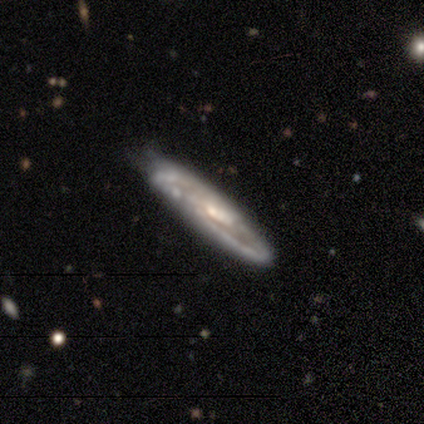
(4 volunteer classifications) Volunteers were most divided on "edge-on disk": no: 67%, yes: 33%. More confident: bar — weak (100%); spiral arms — yes (100%); spiral winding — tight (100%); spiral arm count — 2 (100%); bulge size — moderate (100%); smooth or featured — featured or disk (75%); merging — none (75%).